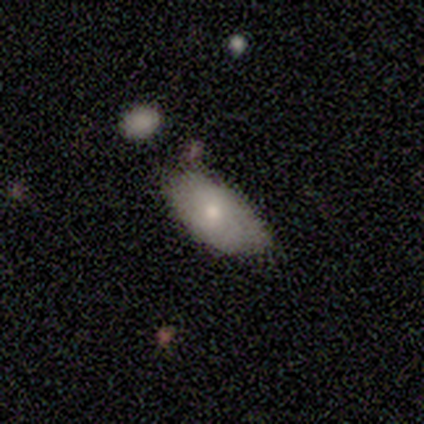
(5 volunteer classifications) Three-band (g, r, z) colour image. It shows a smooth galaxy with no disk features (100%) that is in between round and cigar-shaped (100%). Merging: none (80%).